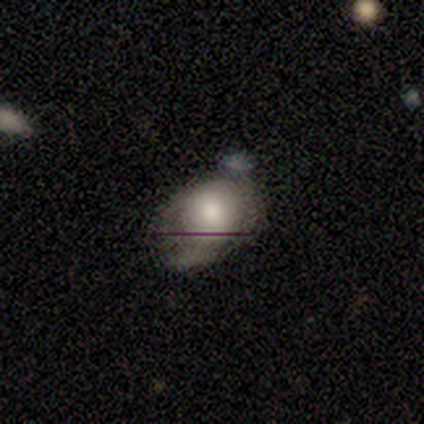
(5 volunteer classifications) Smooth or featured? 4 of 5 (80%) said smooth. How rounded? 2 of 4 (50%, tied with in between) said round. Merging? 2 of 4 (50%) said major disturbance.